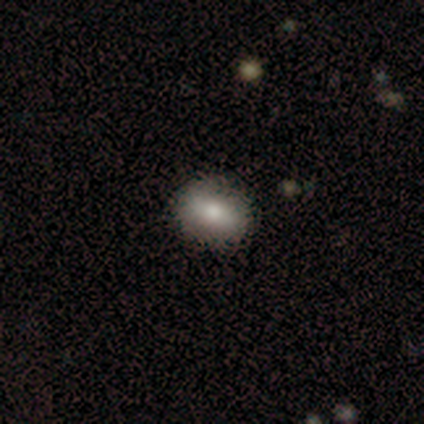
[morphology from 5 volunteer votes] smooth 60%, featured or disk 40%, star or artifact 0%. Down the decision tree: how rounded — in between (100%); merging — none (60%).